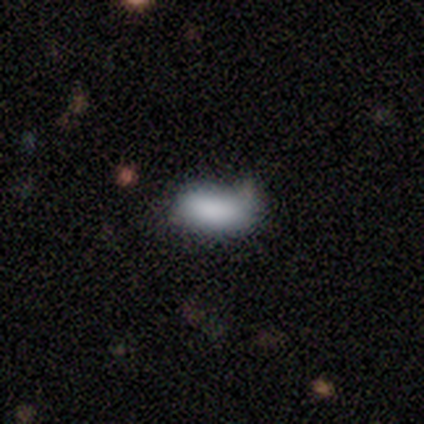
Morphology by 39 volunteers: type=smooth (90%); roundness=in between (94%); merging=none (54%).